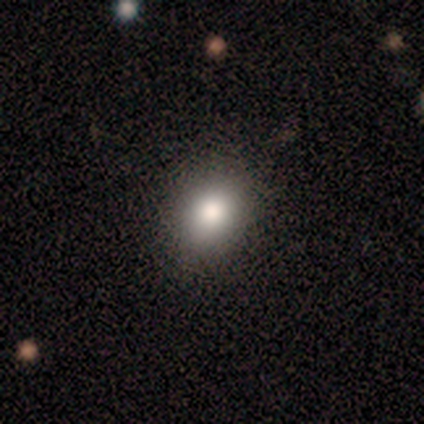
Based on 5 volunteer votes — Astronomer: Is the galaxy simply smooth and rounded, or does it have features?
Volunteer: smooth — 100%.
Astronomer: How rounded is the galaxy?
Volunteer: round — 80%.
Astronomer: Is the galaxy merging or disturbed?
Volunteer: none — 100%.